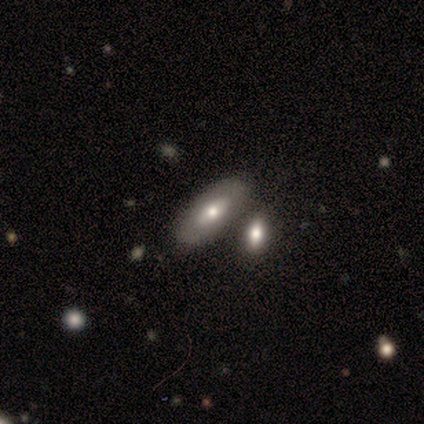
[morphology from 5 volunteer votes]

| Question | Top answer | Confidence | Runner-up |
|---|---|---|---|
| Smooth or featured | featured or disk | 60% | smooth (40%) |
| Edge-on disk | no | 67% | yes (33%) |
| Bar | no | 100% | — |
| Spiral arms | no | 100% | — |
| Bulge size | moderate | 100% | — |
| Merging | none | 80% | merger (20%) |